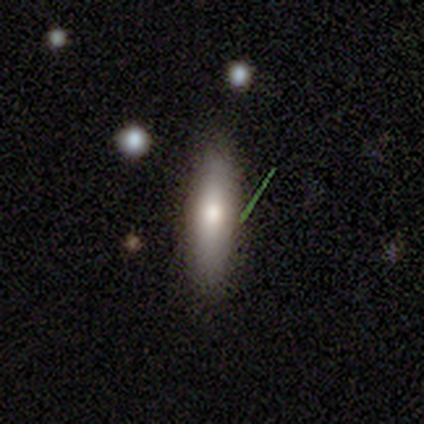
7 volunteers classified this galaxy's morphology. A smooth galaxy with no disk features (71%) that is in between round and cigar-shaped (60%). Merging: none (100%).